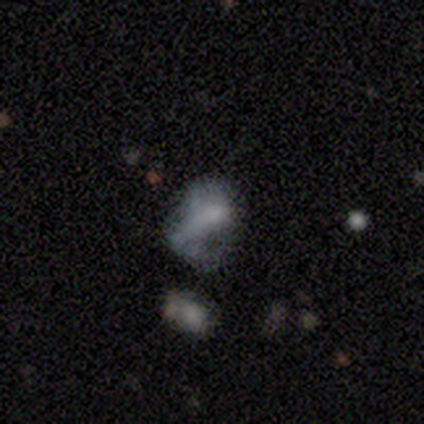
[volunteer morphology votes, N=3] Overall: smooth (67%; star or artifact 33%). How rounded: in between (100%). Merging: minor disturbance (50%, tied with major disturbance).